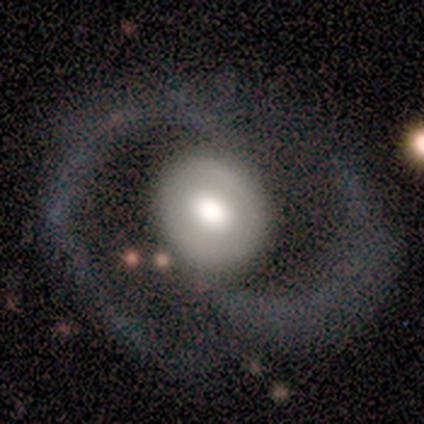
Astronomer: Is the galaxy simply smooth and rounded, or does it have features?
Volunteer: featured or disk — 100%.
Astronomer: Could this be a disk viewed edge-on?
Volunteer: no — 100%.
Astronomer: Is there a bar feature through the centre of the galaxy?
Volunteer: no — 60%.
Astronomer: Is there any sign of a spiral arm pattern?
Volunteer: yes — 100%.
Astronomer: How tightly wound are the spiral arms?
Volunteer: medium — 40%, tied with loose at 40%.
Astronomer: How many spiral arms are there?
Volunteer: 2 — 100%.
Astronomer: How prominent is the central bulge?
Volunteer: large — 60% (runner-up: moderate, 40%).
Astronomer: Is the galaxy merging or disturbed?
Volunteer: none — 80%.